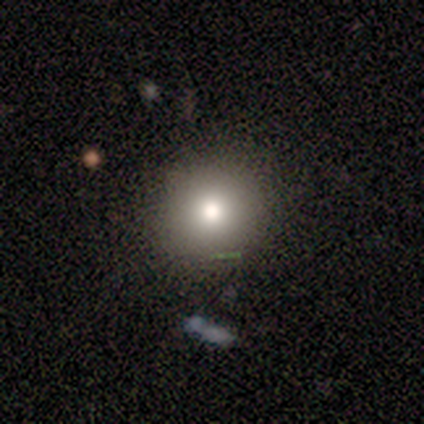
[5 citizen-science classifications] This is likely a smooth galaxy (60%). How rounded: likely in between (67%). Merging: clearly none (100%).